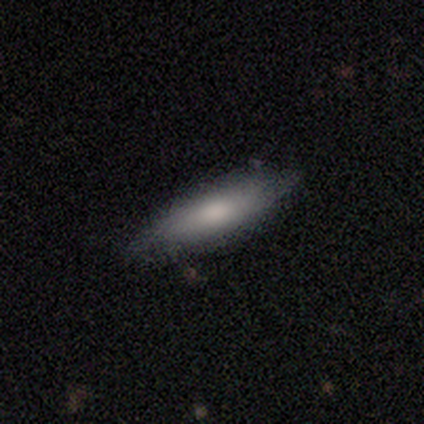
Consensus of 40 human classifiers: This is likely a smooth galaxy (78%). How rounded: possibly cigar-shaped (52%). Merging: possibly none (54%).